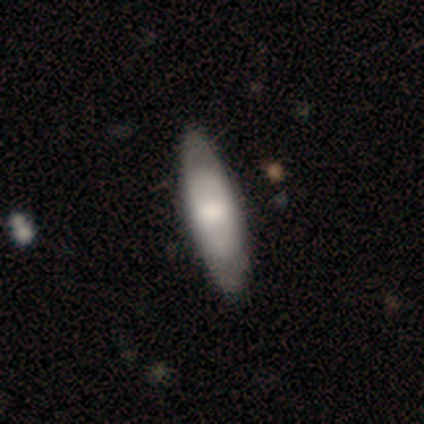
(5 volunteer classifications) Morphology: type=smooth (60%); roundness=in between (67%); merging=none (100%).